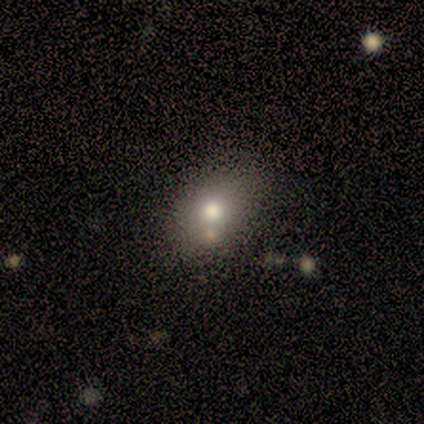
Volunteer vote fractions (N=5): Morphology: type=smooth (60%); roundness=in between (67%); merging=none (33%, tied with major disturbance and merger).